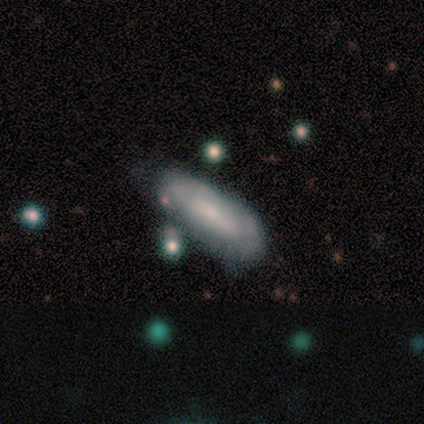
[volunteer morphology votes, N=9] A smooth galaxy with no disk features (56%) that is in between round and cigar-shaped (80%).

Vote fractions:
- Smooth or featured? smooth: 56% / featured or disk: 44% / star or artifact: 0%
- How rounded? in between: 80% / cigar-shaped: 20% / round: 0%
- Merging? none: 67% / minor disturbance: 33% / major disturbance: 0% / merger: 0%